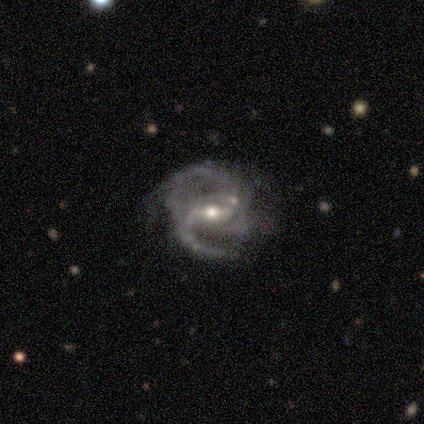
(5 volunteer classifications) Smooth or featured? featured or disk (100%)
Edge-on disk? no (100%)
Bar? weak (60%)
Spiral arms? yes (100%)
Spiral winding? medium (80%)
Spiral arm count? 2 (100%)
Bulge size? moderate (60%)
Merging? major disturbance (80%)